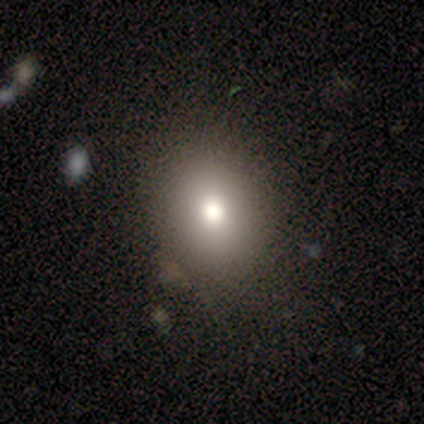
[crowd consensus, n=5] smooth_or_featured: smooth (p=0.80) [alt: star or artifact p=0.20]
how_rounded: round (p=0.50) [alt: in between p=0.25]
merging: none (p=1.00)